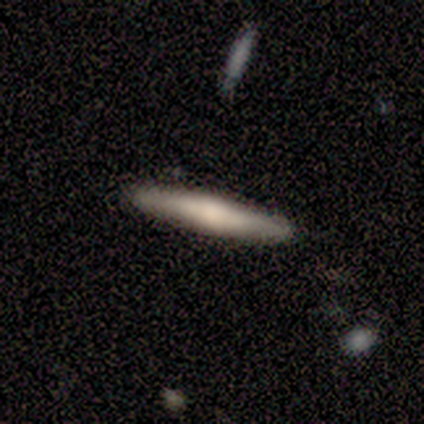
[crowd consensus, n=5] Smooth or featured?
  - smooth: 60% *
  - featured or disk: 40%
  - star or artifact: 0%
How rounded?
  - cigar-shaped: 67% *
  - in between: 33%
  - round: 0%
Merging?
  - none: 60% *
  - minor disturbance: 40%
  - major disturbance: 0%
  - merger: 0%